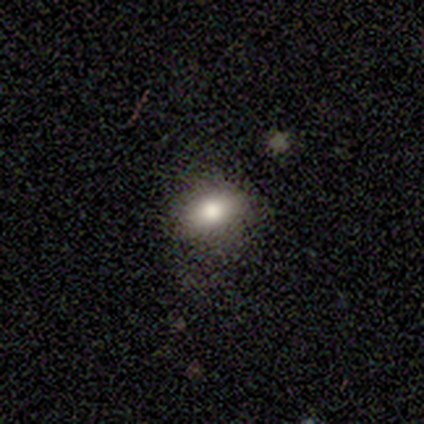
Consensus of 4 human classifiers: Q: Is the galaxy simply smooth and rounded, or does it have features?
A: smooth — 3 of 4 (75%).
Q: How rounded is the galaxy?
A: in between — 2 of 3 (67%).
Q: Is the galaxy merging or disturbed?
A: none — 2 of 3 (67%).